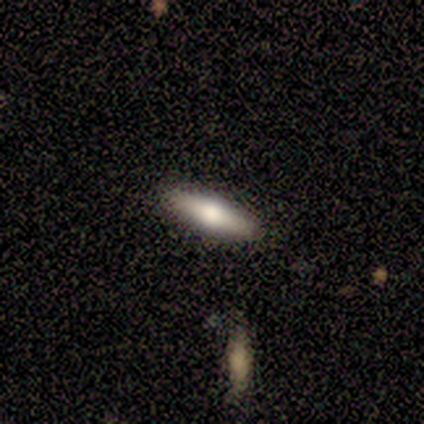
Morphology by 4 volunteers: featured or disk 75%, smooth 25%, star or artifact 0%. Down the decision tree: edge-on disk — yes (100%); edge-on bulge — rounded (100%); merging — none (75%).